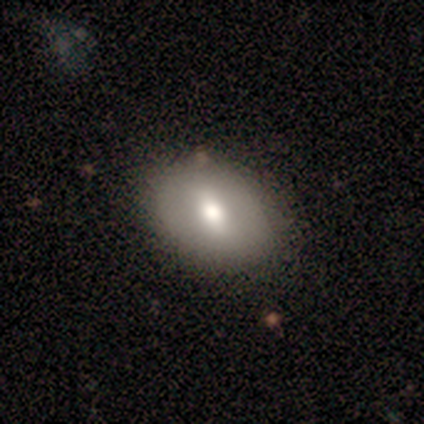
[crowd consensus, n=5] Volunteers were most divided on "smooth or featured": smooth: 60%, featured or disk: 40%, star or artifact: 0%. More confident: merging — none (100%); how rounded — in between (67%).